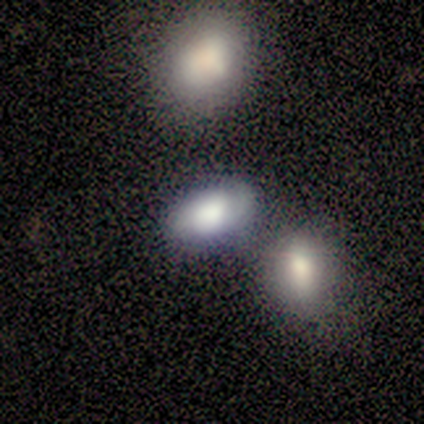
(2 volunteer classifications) smooth-or-featured: smooth: 50% (tied) | featured or disk: 50% (tied) | star or artifact: 0%
  how-rounded: in between: 100% | round: 0% | cigar-shaped: 0%
  merging: none: 50% (tied) | minor disturbance: 50% (tied) | major disturbance: 0% | merger: 0%